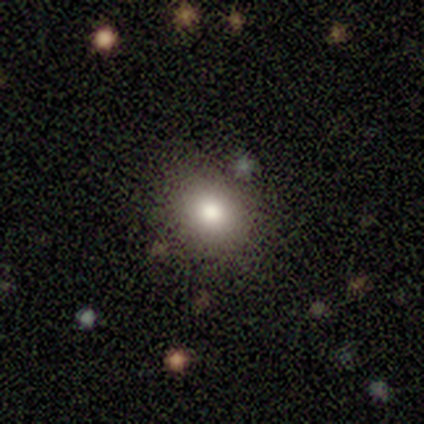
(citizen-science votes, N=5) smooth 100%, featured or disk 0%, star or artifact 0%. Down the decision tree: how rounded — round (60%); merging — none (80%).